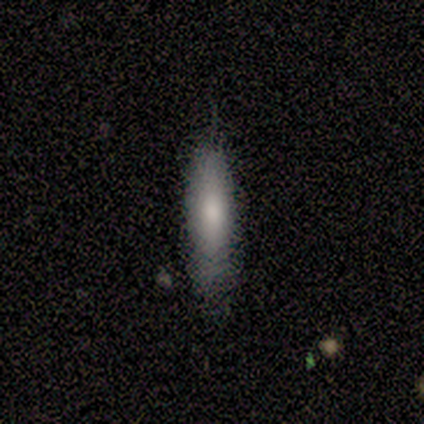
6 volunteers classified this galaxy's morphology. Smooth or featured?
  - smooth: 100% *
  - featured or disk: 0%
  - star or artifact: 0%
How rounded?
  - cigar-shaped: 67% *
  - in between: 33%
  - round: 0%
Merging?
  - none: 100% *
  - minor disturbance: 0%
  - major disturbance: 0%
  - merger: 0%